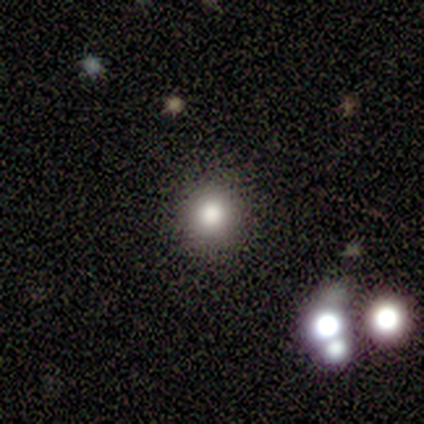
Consensus on every question: smooth or featured — smooth (100%); how rounded — round (100%); merging — none (100%).